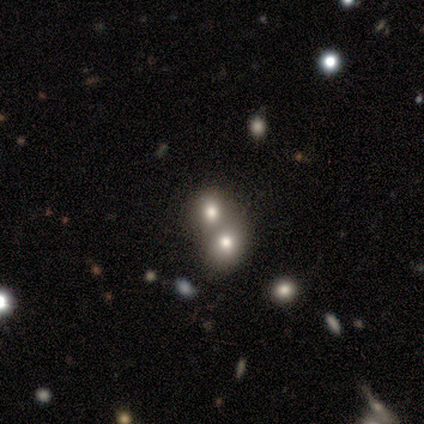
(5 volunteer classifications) smooth_or_featured: smooth (p=0.60) [alt: featured or disk p=0.20]
how_rounded: in between (p=0.67) [alt: round p=0.33]
merging: merger (p=1.00)